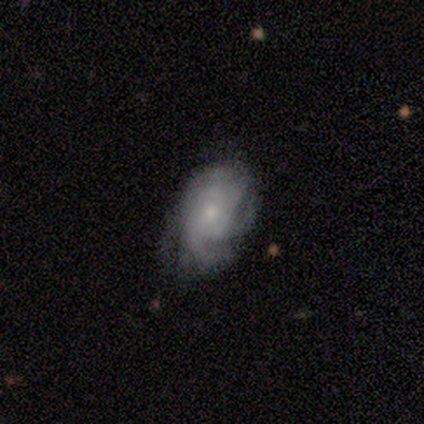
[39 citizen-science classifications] A featured or disk galaxy (82%) with no bar (84%), tight (52%) spiral arms (91%) and a small central bulge (53%).

Vote fractions:
- Smooth or featured? featured or disk: 82% / smooth: 15% / star or artifact: 3%
- Edge-on disk? no: 100% / yes: 0%
- Bar? no: 84% / weak: 16% / strong: 0%
- Spiral arms? yes: 91% / no: 9%
- Spiral winding? tight: 52% / medium: 41% / loose: 7%
- Spiral arm count? can't tell: 38% / 3: 28% / more than 4: 14% / 2: 10% / 4: 7% / 1: 3%
- Bulge size? small: 53% / moderate: 34% / none: 6% / dominant: 3% / large: 3%
- Merging? none: 68% / minor disturbance: 18% / major disturbance: 11% / merger: 3%